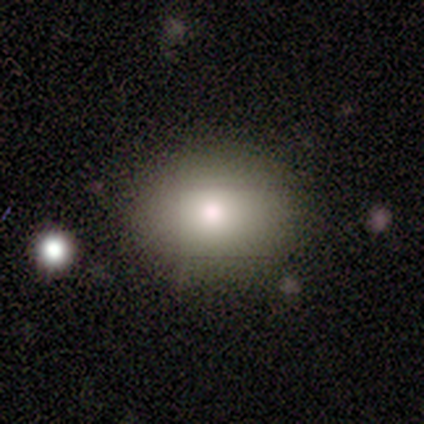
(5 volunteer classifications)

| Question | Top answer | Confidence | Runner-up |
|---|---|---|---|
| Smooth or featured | smooth | 80% | star or artifact (20%) |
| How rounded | round | 75% | in between (25%) |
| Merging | none | 100% | — |